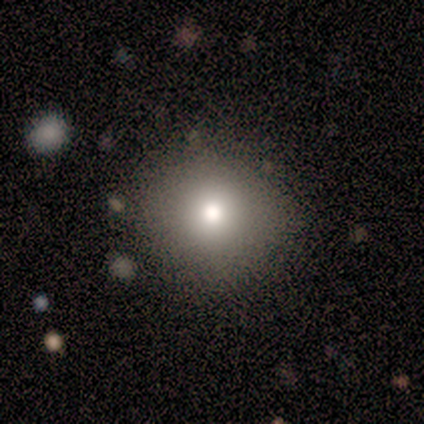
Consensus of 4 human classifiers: smooth 100%, featured or disk 0%, star or artifact 0%. Down the decision tree: how rounded — round (75%); merging — none (100%).